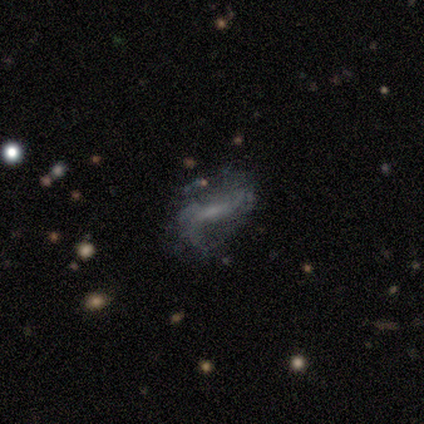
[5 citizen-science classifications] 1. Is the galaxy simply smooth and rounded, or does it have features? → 80% featured or disk, 20% smooth, 0% star or artifact.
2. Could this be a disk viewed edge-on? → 75% no, 25% yes.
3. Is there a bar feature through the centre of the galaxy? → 67% no, 33% strong, 0% weak.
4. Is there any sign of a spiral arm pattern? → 67% yes, 33% no.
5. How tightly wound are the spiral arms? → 50% medium (tied), 50% loose (tied), 0% tight.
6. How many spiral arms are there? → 100% 2, 0% 1, 0% 3, 0% 4, 0% more than 4, 0% can't tell.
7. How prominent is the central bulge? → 33% moderate (tied), 33% small (tied), 33% none (tied), 0% dominant, 0% large.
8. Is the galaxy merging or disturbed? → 60% none, 40% minor disturbance, 0% major disturbance, 0% merger.